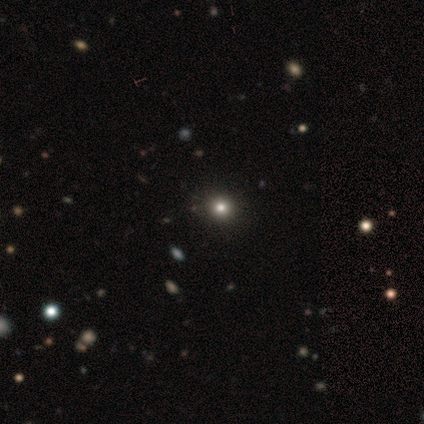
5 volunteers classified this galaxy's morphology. Smooth or featured? star or artifact (60%)